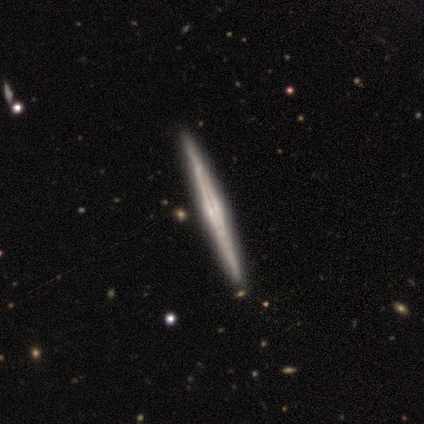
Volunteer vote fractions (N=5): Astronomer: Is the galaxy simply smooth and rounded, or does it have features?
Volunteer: featured or disk — 80%.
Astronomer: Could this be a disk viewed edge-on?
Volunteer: yes — 100%.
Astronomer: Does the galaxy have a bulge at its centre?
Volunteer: boxy — 50%.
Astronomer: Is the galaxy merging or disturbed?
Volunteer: none — 100%.